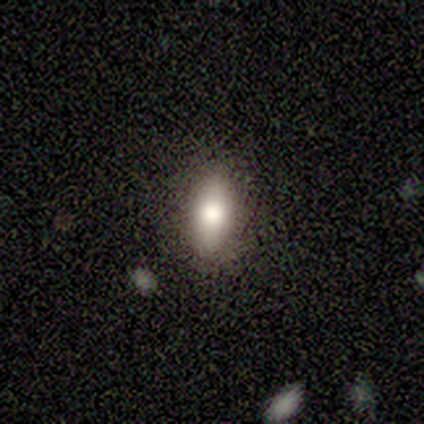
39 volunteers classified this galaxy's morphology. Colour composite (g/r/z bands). It shows a smooth galaxy with no disk features (90%) that is in between round and cigar-shaped (80%). Merging: none (81%).